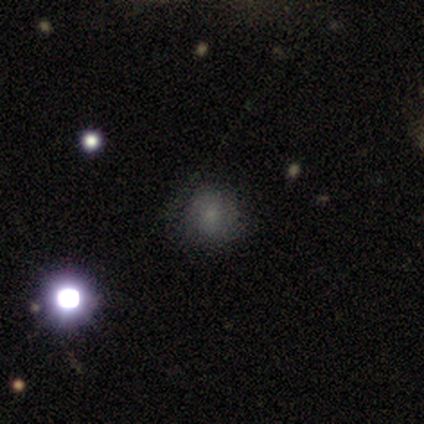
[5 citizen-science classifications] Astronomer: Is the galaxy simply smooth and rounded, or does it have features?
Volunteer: smooth — 100%.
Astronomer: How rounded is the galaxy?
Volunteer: round — 80%.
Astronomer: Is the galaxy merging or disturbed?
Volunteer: none — 100%.